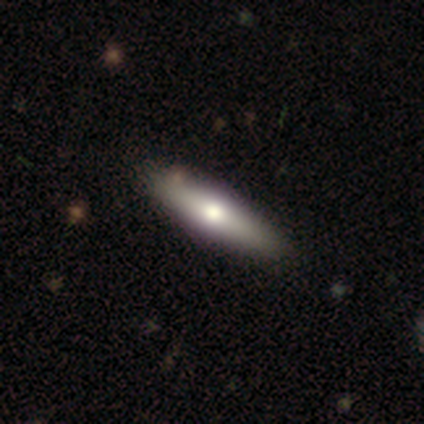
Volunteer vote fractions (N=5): Morphology: type=smooth (40%, tied with featured or disk); roundness=in between (50%, tied with cigar-shaped); merging=none (75%).